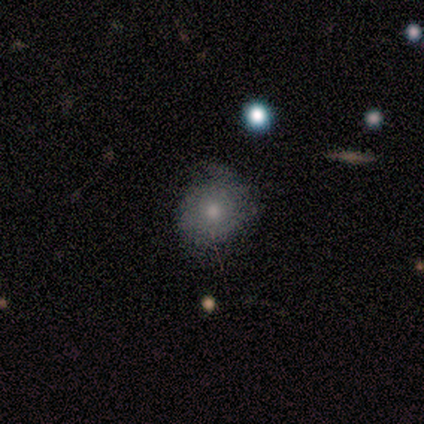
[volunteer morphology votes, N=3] type=featured or disk (67%); edge-on=no (100%); bar=no (100%); spiral arms=yes (100%); winding=medium (50%, tied with loose); arm count=2 (100%); bulge=large (50%, tied with none); merging=none (100%).